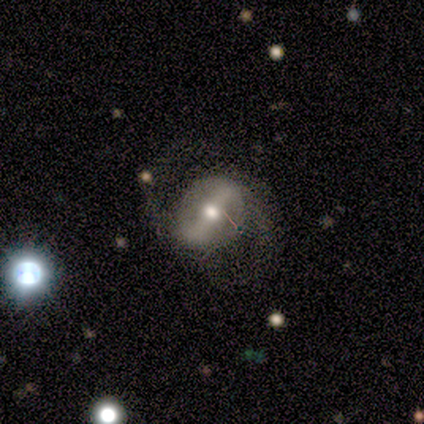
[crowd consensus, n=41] Volunteers were most divided on "spiral winding": medium: 61%, loose: 29%, tight: 11%. More confident: spiral arm count — 2 (100%); edge-on disk — no (92%); smooth or featured — featured or disk (90%); spiral arms — yes (82%); bulge size — moderate (79%); merging — none (72%); bar — strong (68%).